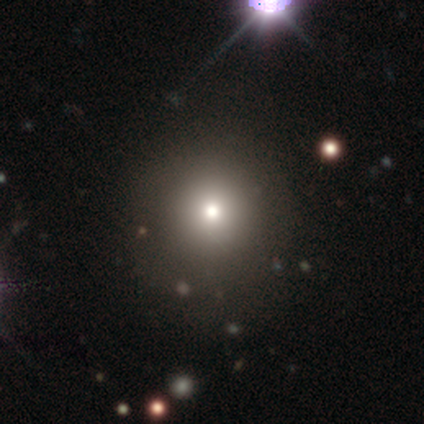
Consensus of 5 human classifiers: Smooth or featured?
  - smooth: 60% *
  - featured or disk: 20%
  - star or artifact: 20%
How rounded?
  - round: 100% *
  - in between: 0%
  - cigar-shaped: 0%
Merging?
  - none: 100% *
  - minor disturbance: 0%
  - major disturbance: 0%
  - merger: 0%